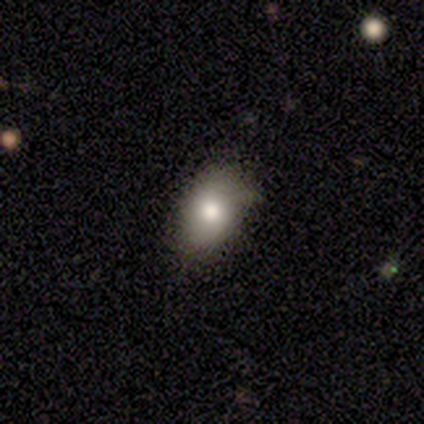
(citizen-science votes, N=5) Volunteers were most divided on "merging": none: 60%, minor disturbance: 40%, major disturbance: 0%, merger: 0%. More confident: smooth or featured — smooth (100%); how rounded — in between (80%).